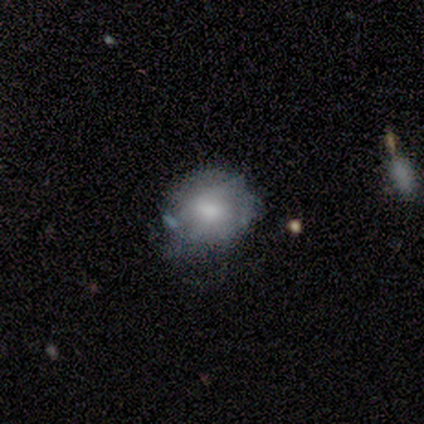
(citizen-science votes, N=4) Volunteers were most divided on "spiral arms" (2-way tie): yes: 50%, no: 50%. More confident: edge-on disk — no (100%); bar — no (100%); spiral winding — tight (100%); spiral arm count — can't tell (100%); bulge size — large (100%); merging — minor disturbance (100%); smooth or featured — featured or disk (50%).